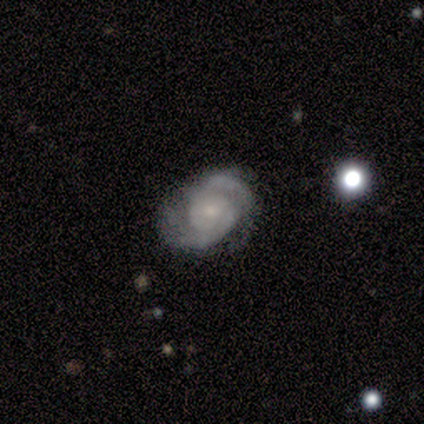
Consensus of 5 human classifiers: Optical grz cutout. It shows a featured or disk galaxy (100%) with no bar (60%), 2 (100%) medium (80%) spiral arms (100%) and a small central bulge (60%). Merging: none (60%).